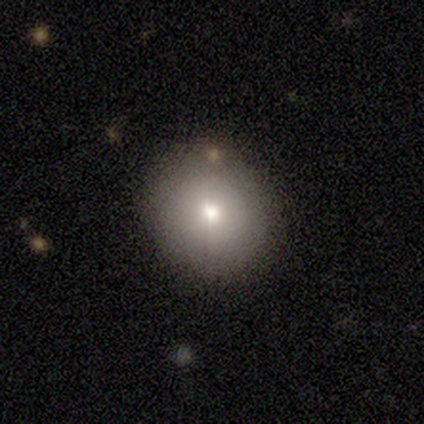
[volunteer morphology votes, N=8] Smooth or featured? smooth (75%)
How rounded? round (100%)
Merging? none (62%)